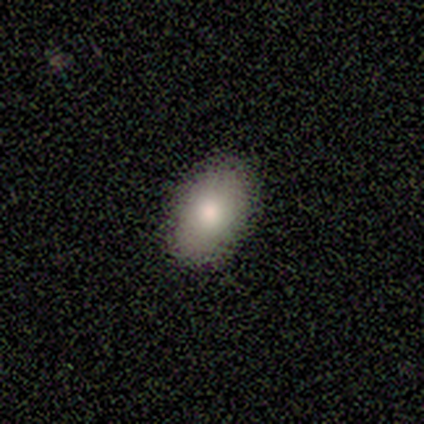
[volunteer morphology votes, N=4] type=smooth (75%); roundness=in between (100%); merging=none (100%).